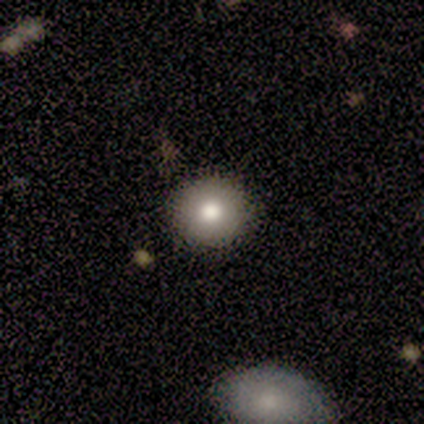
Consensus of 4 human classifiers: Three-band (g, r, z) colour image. It shows a smooth galaxy with no disk features (75%) that is round (100%). Merging: none (100%).